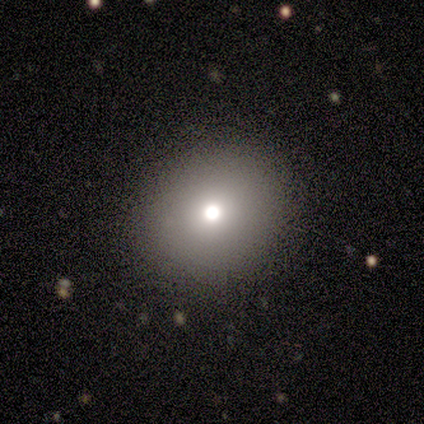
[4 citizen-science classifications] smooth-or-featured: smooth: 75% | featured or disk: 25% | star or artifact: 0%
  how-rounded: in between: 67% | round: 33% | cigar-shaped: 0%
  merging: none: 50% | minor disturbance: 25% | major disturbance: 25% | merger: 0%